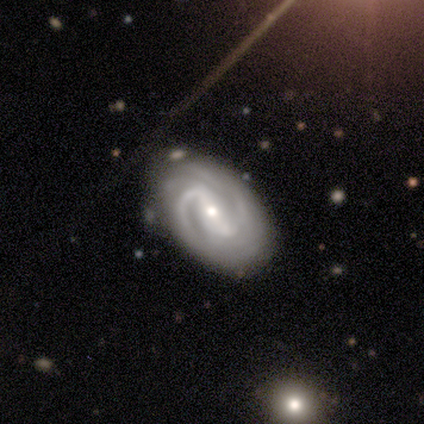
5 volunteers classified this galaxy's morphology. A featured or disk galaxy (100%) with a strong bar (40%, tied with no), 2 (80%) medium (80%) spiral arms (100%) and a small central bulge (60%). Merging: none (100%).